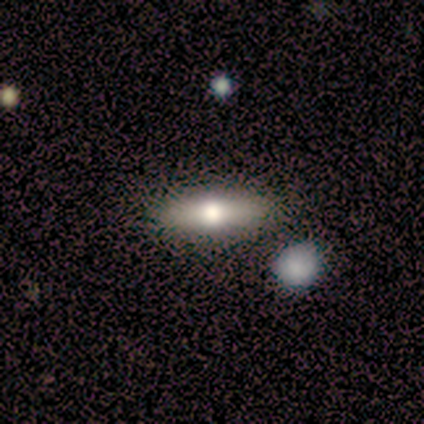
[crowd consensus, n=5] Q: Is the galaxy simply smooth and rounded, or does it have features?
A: featured or disk — 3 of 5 (60%).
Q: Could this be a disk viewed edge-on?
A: yes — 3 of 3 (100%).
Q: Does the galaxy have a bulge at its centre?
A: rounded — 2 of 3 (67%).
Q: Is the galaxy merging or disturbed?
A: none — 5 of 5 (100%).